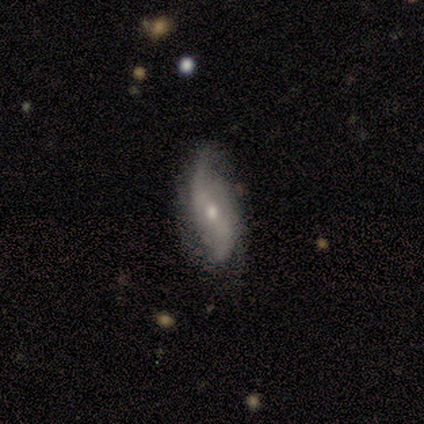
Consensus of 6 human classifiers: Smooth or featured? 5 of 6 (83%) said featured or disk. Edge-on disk? 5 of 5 (100%) said no. Bar? 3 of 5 (60%) said no. Spiral arms? 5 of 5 (100%) said yes. Spiral winding? 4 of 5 (80%) said loose. Spiral arm count? 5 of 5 (100%) said 2. Bulge size? 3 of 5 (60%) said small. Merging? 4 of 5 (80%) said none.